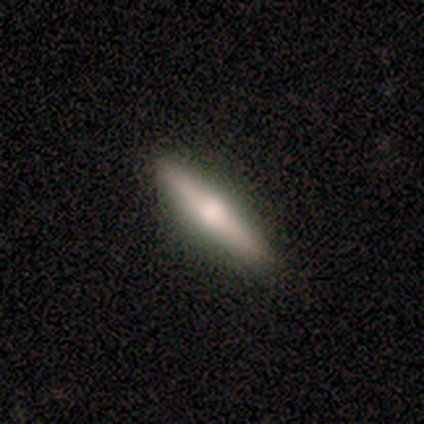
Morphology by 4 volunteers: Smooth or featured: smooth — 50% (tied with featured or disk — 50%)
How rounded: cigar-shaped — 100%
Merging: none — 100%